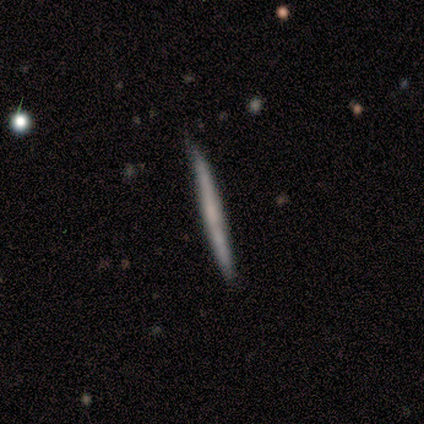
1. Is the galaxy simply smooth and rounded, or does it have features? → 78% featured or disk, 22% smooth, 0% star or artifact.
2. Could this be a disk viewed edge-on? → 100% yes, 0% no.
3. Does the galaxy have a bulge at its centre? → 71% none, 29% rounded, 0% boxy.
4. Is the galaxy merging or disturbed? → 67% none, 22% merger, 11% minor disturbance, 0% major disturbance.